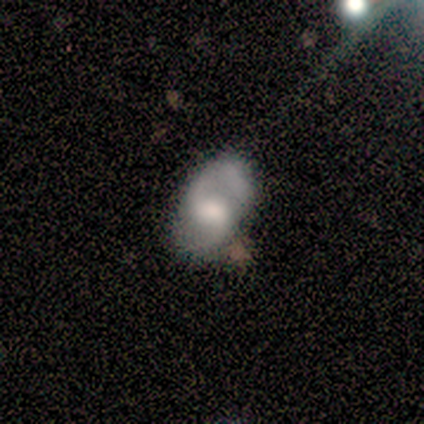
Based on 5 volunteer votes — A featured or disk galaxy (60%) with a weak bar (67%), 2 (100%) medium (50%, tied with loose) spiral arms (67%) and a moderate central bulge (100%).

Vote fractions:
- Smooth or featured? featured or disk: 60% / smooth: 40% / star or artifact: 0%
- Edge-on disk? no: 100% / yes: 0%
- Bar? weak: 67% / no: 33% / strong: 0%
- Spiral arms? yes: 67% / no: 33%
- Spiral winding? medium: 50% (tied) / loose: 50% (tied) / tight: 0%
- Spiral arm count? 2: 100% / 1: 0% / 3: 0% / 4: 0% / more than 4: 0% / can't tell: 0%
- Bulge size? moderate: 100% / dominant: 0% / large: 0% / small: 0% / none: 0%
- Merging? minor disturbance: 60% / none: 40% / major disturbance: 0% / merger: 0%